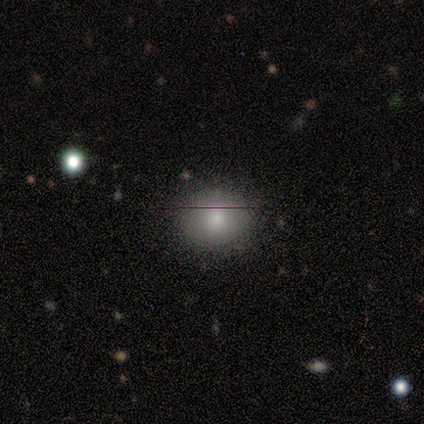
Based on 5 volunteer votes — Smooth or featured? smooth (60%)
How rounded? round (67%)
Merging? none (75%)